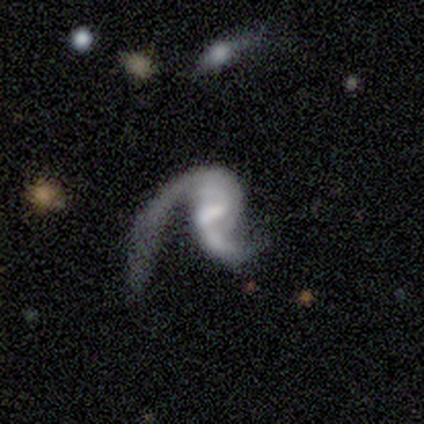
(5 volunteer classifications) featured or disk 80%, star or artifact 20%, smooth 0%. Down the decision tree: edge-on disk — no (100%); bar — weak (50%, tied with no); spiral arms — yes (100%); spiral arm count — 2 (75%); spiral winding — loose (50%); bulge size — small (50%); merging — major disturbance (100%).